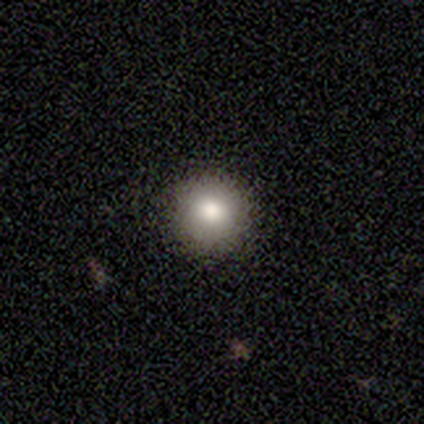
Consensus on every question: smooth or featured — smooth (100%); how rounded — round (100%); merging — none (100%).